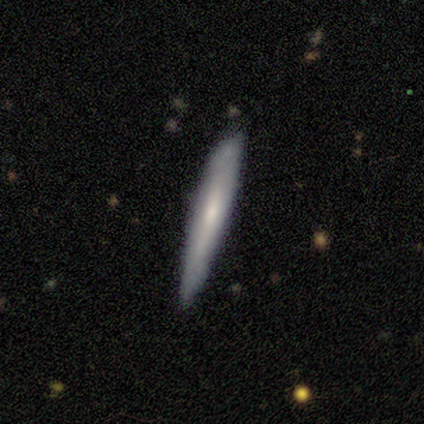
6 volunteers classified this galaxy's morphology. smooth_or_featured: featured or disk (p=0.67) [alt: smooth p=0.33]
disk_edge_on: yes (p=1.00)
edge_on_bulge: none (p=0.50) [tied with: rounded p=0.50]
merging: none (p=0.83) [alt: minor disturbance p=0.17]